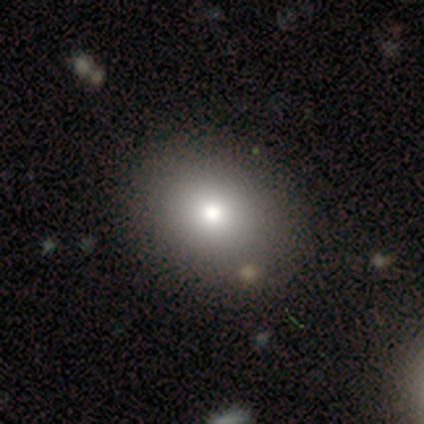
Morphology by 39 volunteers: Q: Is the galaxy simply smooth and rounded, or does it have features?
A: smooth — 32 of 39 (82%).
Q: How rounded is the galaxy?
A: in between — 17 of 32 (53%).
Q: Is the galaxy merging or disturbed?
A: none — 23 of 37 (62%).